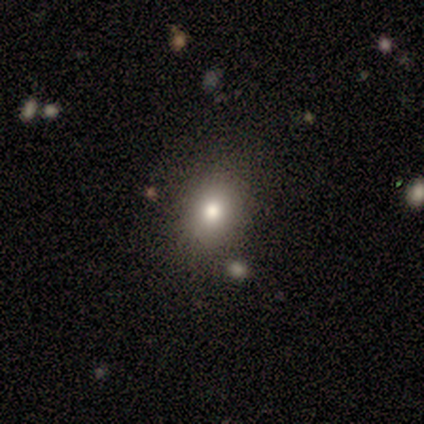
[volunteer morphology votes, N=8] smooth_or_featured: smooth (p=0.88) [alt: featured or disk p=0.12]
how_rounded: in between (p=0.86) [alt: round p=0.14]
merging: none (p=0.50) [alt: minor disturbance p=0.25]